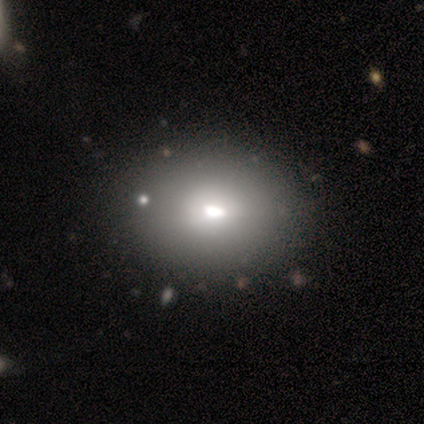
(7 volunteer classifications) smooth-or-featured: smooth: 86% | featured or disk: 14% | star or artifact: 0%
  how-rounded: round: 50% (tied) | in between: 50% (tied) | cigar-shaped: 0%
  merging: none: 100% | minor disturbance: 0% | major disturbance: 0% | merger: 0%